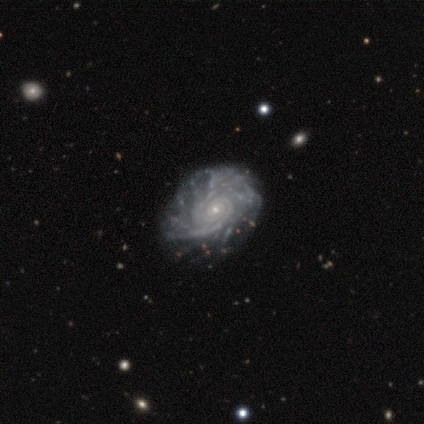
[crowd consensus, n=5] This appears to be a featured or disk galaxy (80%) with no bar (75%), tight (100%) spiral arms (100%) and a small central bulge (100%). Merging: none (75%).